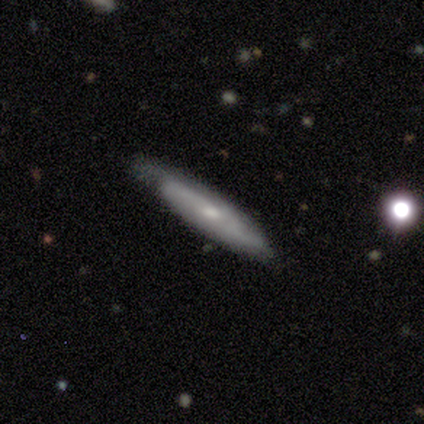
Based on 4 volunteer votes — smooth-or-featured: smooth: 75% | featured or disk: 25% | star or artifact: 0%
  how-rounded: in between: 67% | cigar-shaped: 33% | round: 0%
  merging: none: 50% (tied) | minor disturbance: 50% (tied) | major disturbance: 0% | merger: 0%